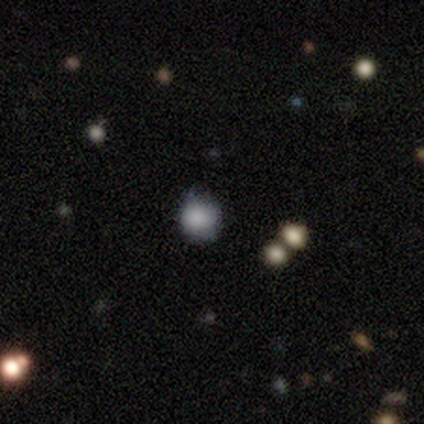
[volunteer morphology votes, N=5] Volunteers were most divided on "merging": none: 75%, minor disturbance: 25%, major disturbance: 0%, merger: 0%. More confident: how rounded — round (100%); smooth or featured — smooth (80%).